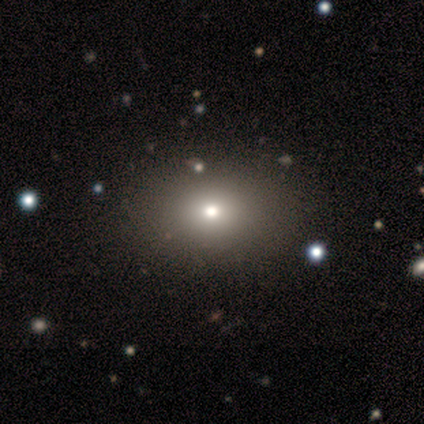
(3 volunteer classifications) This appears to be a featured or disk galaxy (67%) with no bar (100%), no spiral arms (100%) and a moderate central bulge (100%). Merging: none (100%).